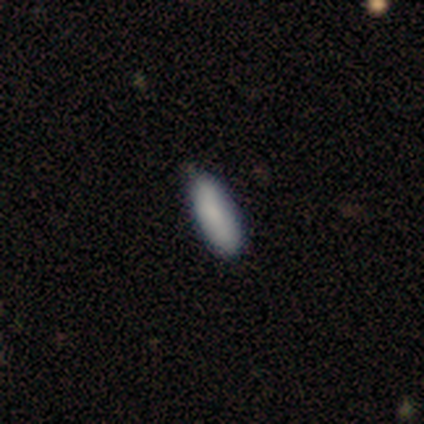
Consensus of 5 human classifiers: smooth-or-featured: smooth: 100% | featured or disk: 0% | star or artifact: 0%
  how-rounded: cigar-shaped: 60% | in between: 40% | round: 0%
  merging: none: 60% | minor disturbance: 40% | major disturbance: 0% | merger: 0%